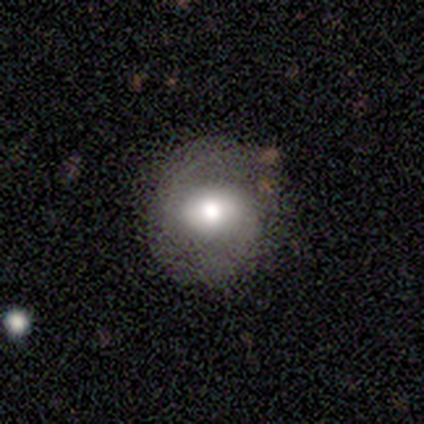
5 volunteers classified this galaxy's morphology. Smooth or featured? featured or disk (60%)
Edge-on disk? no (67%)
Bar? no (100%)
Spiral arms? yes (100%)
Spiral winding? medium (100%)
Spiral arm count? 2 (50%, tied with can't tell)
Bulge size? moderate (100%)
Merging? none (80%)